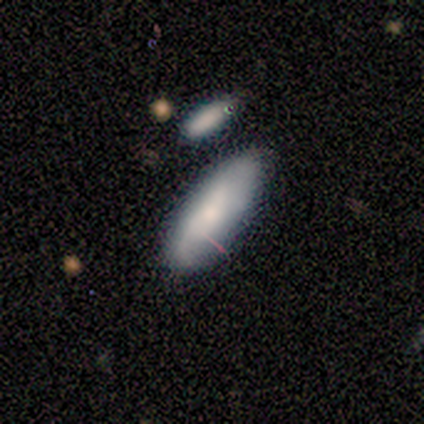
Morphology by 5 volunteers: A smooth galaxy with no disk features (80%) that is in between round and cigar-shaped (75%).

Vote fractions:
- Smooth or featured? smooth: 80% / star or artifact: 20% / featured or disk: 0%
- How rounded? in between: 75% / cigar-shaped: 25% / round: 0%
- Merging? none: 50% / minor disturbance: 25% / major disturbance: 25% / merger: 0%